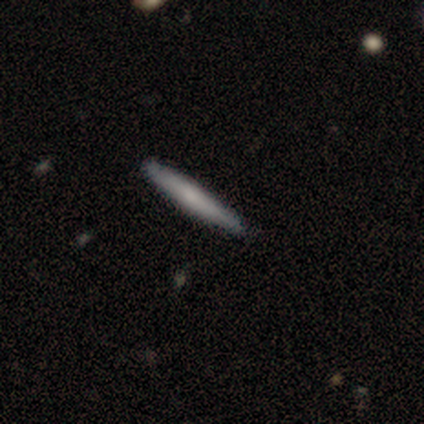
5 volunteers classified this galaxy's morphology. A smooth galaxy with no disk features (80%) that is cigar-shaped (100%). Merging: none (80%).